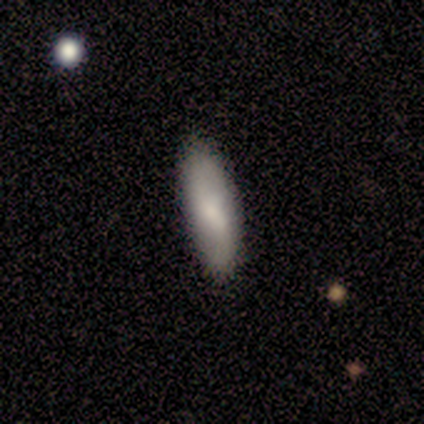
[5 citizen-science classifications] A smooth galaxy with no disk features (60%) that is in between round and cigar-shaped (67%).

Vote fractions:
- Smooth or featured? smooth: 60% / featured or disk: 40% / star or artifact: 0%
- How rounded? in between: 67% / cigar-shaped: 33% / round: 0%
- Merging? none: 80% / minor disturbance: 20% / major disturbance: 0% / merger: 0%